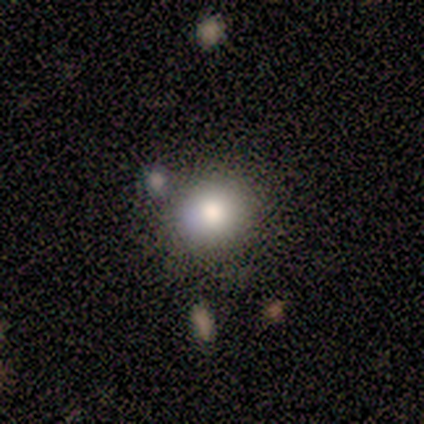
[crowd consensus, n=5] Volunteers were most divided on "smooth or featured": smooth: 80%, featured or disk: 20%, star or artifact: 0%. More confident: how rounded — round (100%); merging — none (100%).